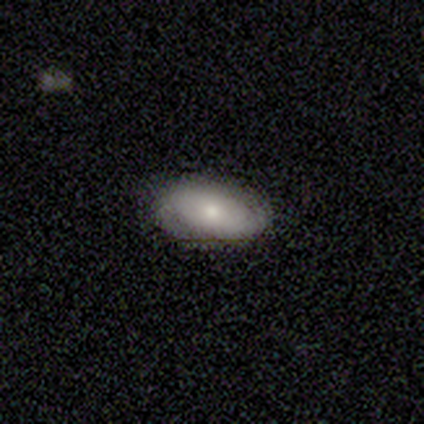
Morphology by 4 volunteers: Smooth or featured: smooth — 50% (tied with featured or disk — 50%)
How rounded: in between — 100%
Merging: none — 75% (minor disturbance — 25%)